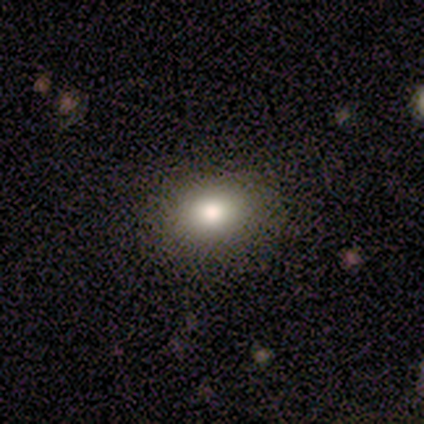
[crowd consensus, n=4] Smooth or featured?
  - smooth: 75% *
  - star or artifact: 25%
  - featured or disk: 0%
How rounded?
  - in between: 67% *
  - round: 33%
  - cigar-shaped: 0%
Merging?
  - none: 100% *
  - minor disturbance: 0%
  - major disturbance: 0%
  - merger: 0%